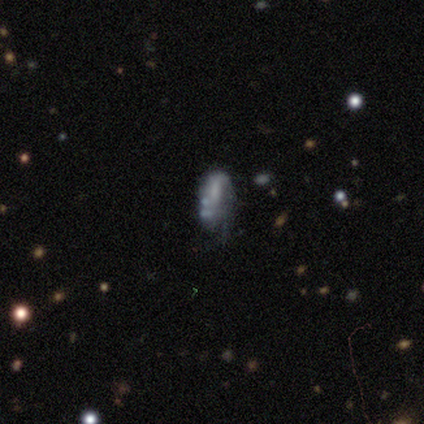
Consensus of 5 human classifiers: Smooth or featured? 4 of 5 (80%) said featured or disk. Edge-on disk? 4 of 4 (100%) said no. Bar? 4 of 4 (100%) said no. Spiral arms? 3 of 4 (75%) said no. Bulge size? 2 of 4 (50%) said none. Merging? 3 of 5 (60%) said minor disturbance.